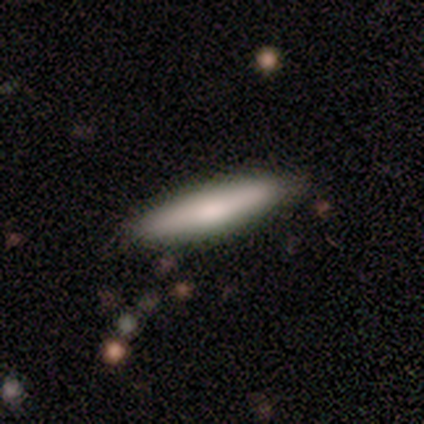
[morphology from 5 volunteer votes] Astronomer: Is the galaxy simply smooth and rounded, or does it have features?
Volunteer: smooth — 80%.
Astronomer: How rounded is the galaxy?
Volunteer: cigar-shaped — 100%.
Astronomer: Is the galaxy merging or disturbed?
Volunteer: none — 100%.